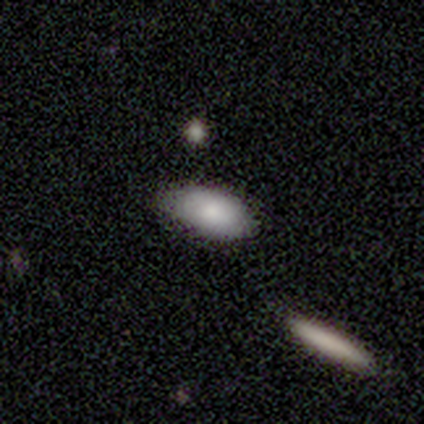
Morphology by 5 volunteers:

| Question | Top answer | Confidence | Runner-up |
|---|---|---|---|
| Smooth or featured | smooth | 80% | star or artifact (20%) |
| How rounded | in between | 100% | — |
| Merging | none | 75% | minor disturbance (25%) |